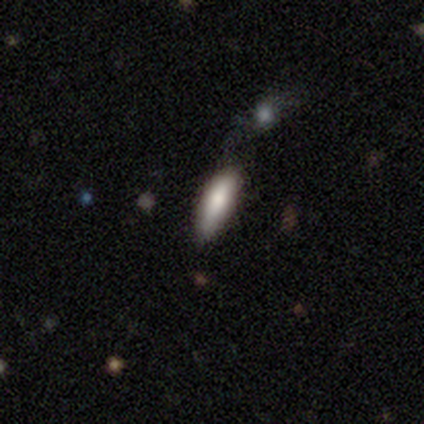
smooth_or_featured: smooth (p=0.80) [alt: featured or disk p=0.20]
how_rounded: in between (p=1.00)
merging: none (p=0.40) [tied with: minor disturbance p=0.40]